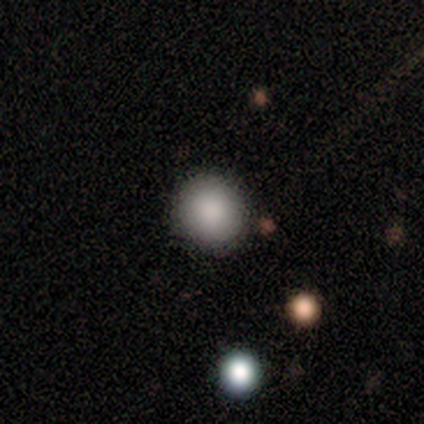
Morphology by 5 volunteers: smooth-or-featured: smooth: 100% | featured or disk: 0% | star or artifact: 0%
  how-rounded: round: 100% | in between: 0% | cigar-shaped: 0%
  merging: none: 100% | minor disturbance: 0% | major disturbance: 0% | merger: 0%